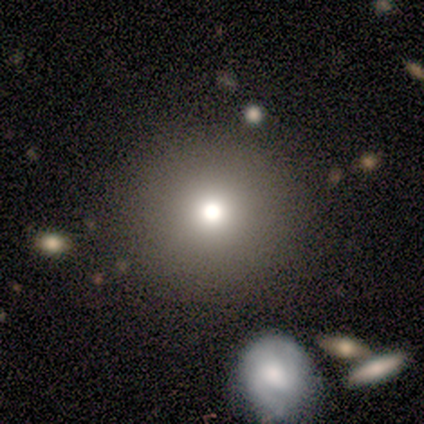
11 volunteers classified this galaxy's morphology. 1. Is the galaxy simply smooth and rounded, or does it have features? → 82% smooth, 18% star or artifact, 0% featured or disk.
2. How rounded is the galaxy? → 100% round, 0% in between, 0% cigar-shaped.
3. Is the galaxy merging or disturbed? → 100% none, 0% minor disturbance, 0% major disturbance, 0% merger.